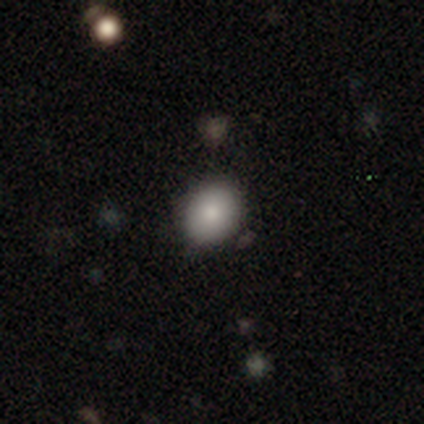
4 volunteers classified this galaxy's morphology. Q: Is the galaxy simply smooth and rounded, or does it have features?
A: smooth — 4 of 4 (100%).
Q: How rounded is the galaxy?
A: in between — 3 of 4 (75%).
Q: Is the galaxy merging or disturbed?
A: none — 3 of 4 (75%).